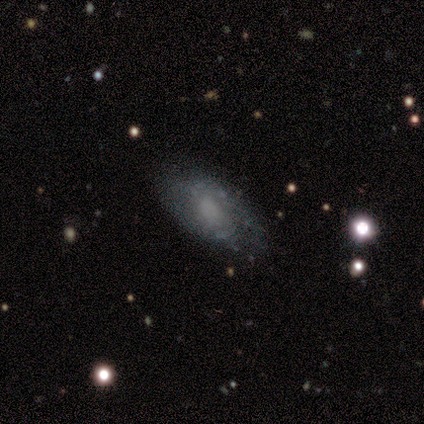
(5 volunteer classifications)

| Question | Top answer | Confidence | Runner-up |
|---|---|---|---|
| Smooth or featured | smooth | 60% | featured or disk (40%) |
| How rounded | in between | 67% | round (33%) |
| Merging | minor disturbance | 60% | none (40%) |